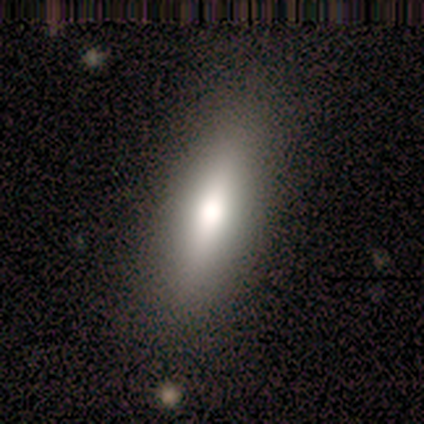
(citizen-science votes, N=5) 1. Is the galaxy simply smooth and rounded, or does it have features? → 60% smooth, 40% featured or disk, 0% star or artifact.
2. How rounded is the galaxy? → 67% in between, 33% cigar-shaped, 0% round.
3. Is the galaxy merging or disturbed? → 80% none, 20% major disturbance, 0% minor disturbance, 0% merger.